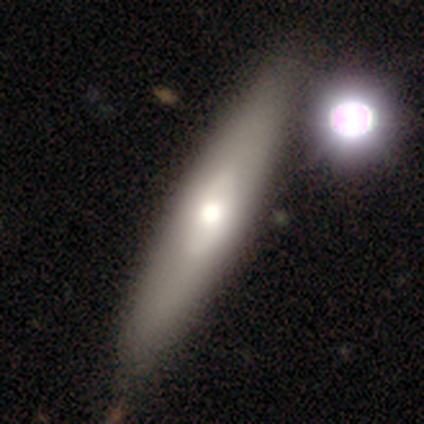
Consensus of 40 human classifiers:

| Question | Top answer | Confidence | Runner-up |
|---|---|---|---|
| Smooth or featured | smooth | 68% | featured or disk (28%) |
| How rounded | cigar-shaped | 59% | in between (30%) |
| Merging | none | 55% | minor disturbance (11%) |